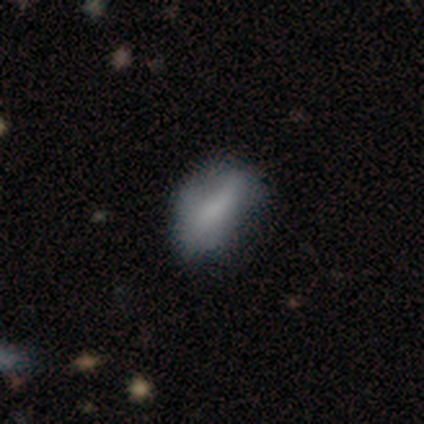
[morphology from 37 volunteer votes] A smooth galaxy with no disk features (70%) that is in between round and cigar-shaped (85%). Merging: none (61%).